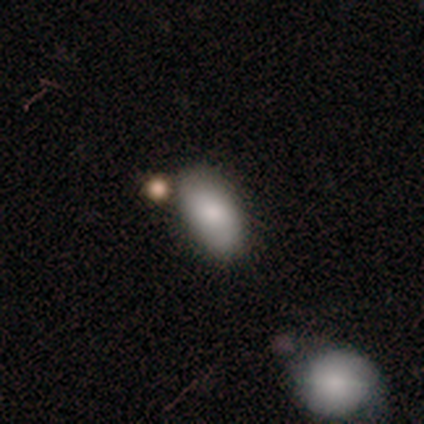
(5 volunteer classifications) A smooth galaxy with no disk features (60%) that is in between round and cigar-shaped (100%). Merging: none (75%).